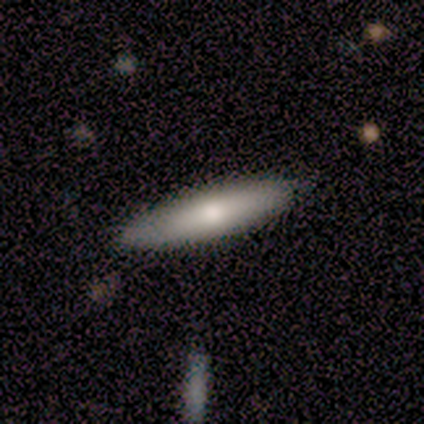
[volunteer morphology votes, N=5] type=smooth (100%); roundness=cigar-shaped (80%); merging=none (100%).